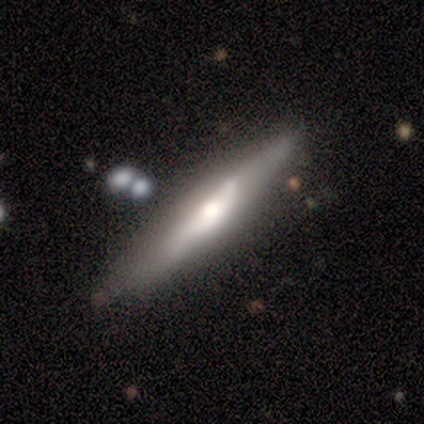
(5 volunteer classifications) Volunteers were most divided on "merging": minor disturbance: 40%, none: 20%, major disturbance: 20%, merger: 20%. More confident: edge-on bulge — rounded (100%); smooth or featured — featured or disk (80%); edge-on disk — yes (75%).